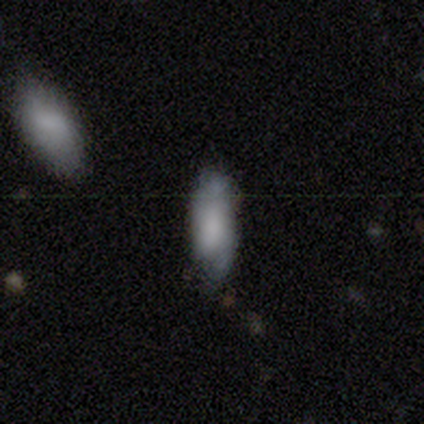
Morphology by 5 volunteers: This is clearly a smooth galaxy (80%). How rounded: clearly in between (100%). Merging: clearly minor disturbance (80%).